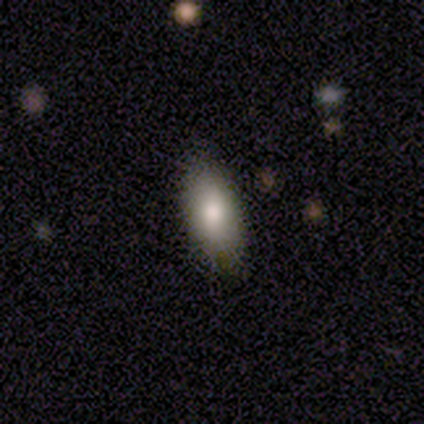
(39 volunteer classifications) This is clearly a smooth galaxy (82%). How rounded: likely in between (72%). Merging: likely none (74%).